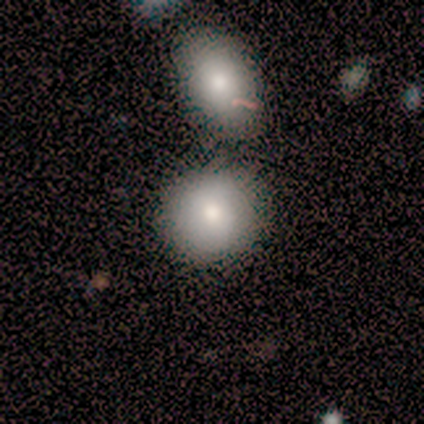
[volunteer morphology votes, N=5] This appears to be a smooth galaxy with no disk features (100%) that is round (80%). Merging: merger (80%).